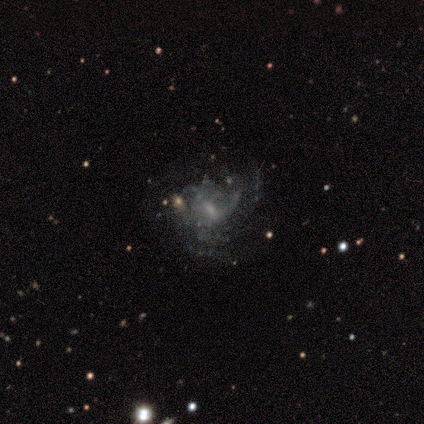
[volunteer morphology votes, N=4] This appears to be a featured or disk galaxy (50%, tied with star or artifact) with a strong bar (50%, tied with no), 2 (50%, tied with can't tell) tight (50%, tied with loose) spiral arms (100%) and a moderate central bulge (50%, tied with none). Merging: none (50%, tied with minor disturbance).